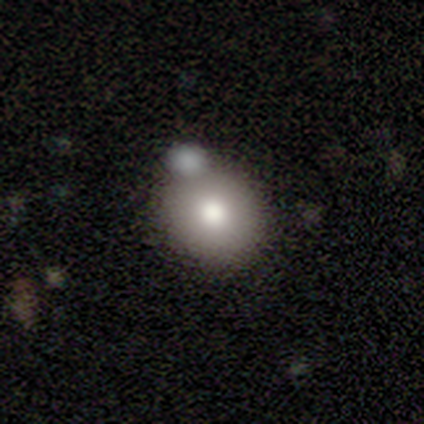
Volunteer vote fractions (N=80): Q: Smooth or featured?
A: smooth (81%); runner-up: featured or disk (11%)
Q: How rounded?
A: round (82%); runner-up: in between (18%)
Q: Merging?
A: merger (42%); runner-up: none (34%)